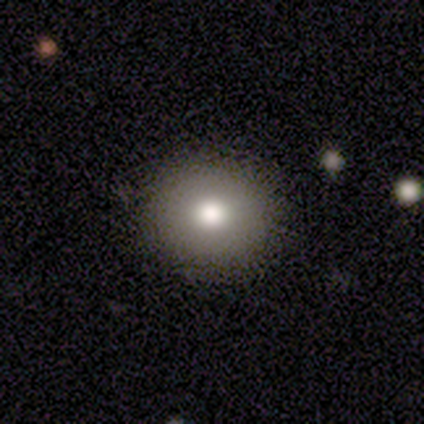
A smooth galaxy with no disk features (74%) that is round (93%). Merging: none (85%).